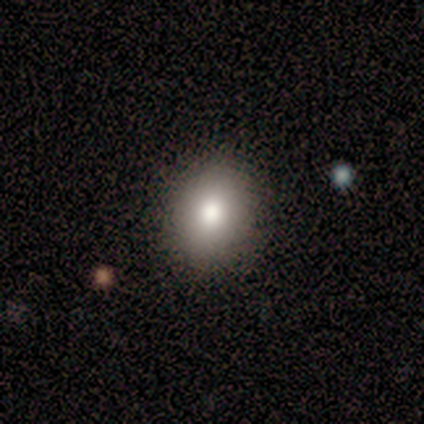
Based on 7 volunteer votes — Morphology: type=smooth (86%); roundness=round (67%); merging=none (100%).